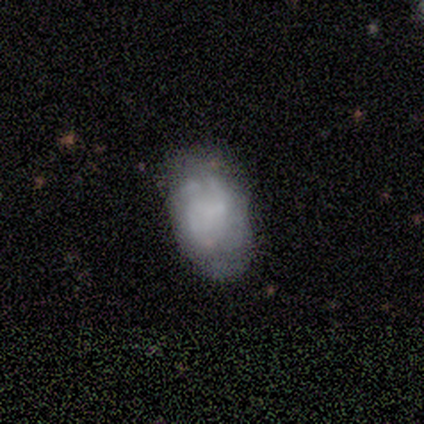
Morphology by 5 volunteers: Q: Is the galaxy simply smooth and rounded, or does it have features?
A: featured or disk — 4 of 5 (80%).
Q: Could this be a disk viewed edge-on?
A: no — 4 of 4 (100%).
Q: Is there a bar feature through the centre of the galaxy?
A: no — 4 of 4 (100%).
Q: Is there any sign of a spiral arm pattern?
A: no — 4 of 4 (100%).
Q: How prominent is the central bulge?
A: none — 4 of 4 (100%).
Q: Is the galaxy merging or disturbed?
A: none — 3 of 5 (60%).